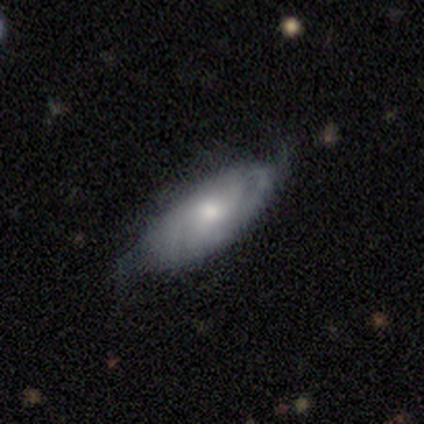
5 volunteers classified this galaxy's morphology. smooth_or_featured: featured or disk (p=0.80) [alt: smooth p=0.20]
disk_edge_on: no (p=0.75) [alt: yes p=0.25]
bar: no (p=0.67) [alt: weak p=0.33]
has_spiral_arms: yes (p=1.00)
spiral_winding: medium (p=0.67) [alt: tight p=0.33]
spiral_arm_count: 1 (p=0.33) [tied with: 3 p=0.33, can't tell p=0.33]
bulge_size: moderate (p=0.67) [alt: small p=0.33]
merging: none (p=0.80) [alt: minor disturbance p=0.20]